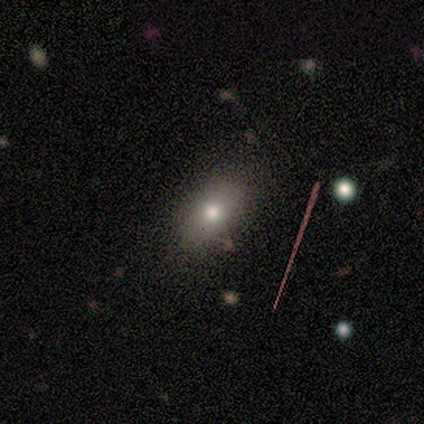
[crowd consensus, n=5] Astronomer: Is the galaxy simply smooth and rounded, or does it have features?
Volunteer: smooth — 100%.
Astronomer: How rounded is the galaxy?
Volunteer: in between — 80%.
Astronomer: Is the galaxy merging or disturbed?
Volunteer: none — 80%.